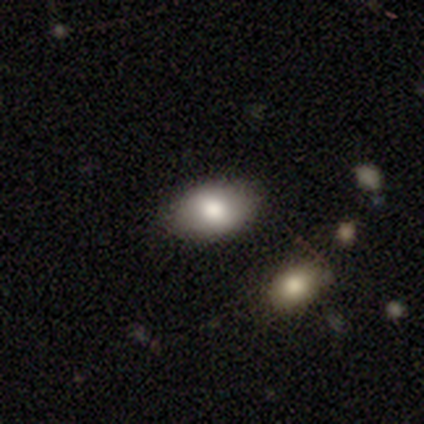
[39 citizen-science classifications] This appears to be a smooth galaxy with no disk features (72%) that is in between round and cigar-shaped (82%). Merging: none (85%).